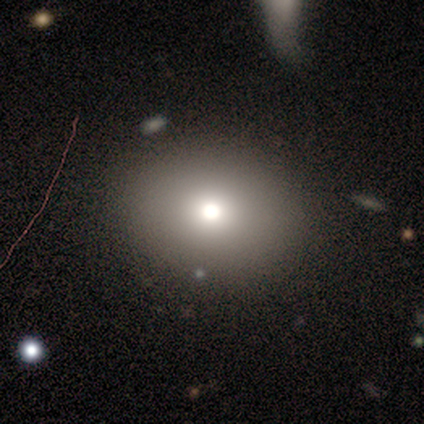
Smooth or featured?
  - smooth: 60% *
  - featured or disk: 20%
  - star or artifact: 20%
How rounded?
  - round: 67% *
  - in between: 33%
  - cigar-shaped: 0%
Merging?
  - none: 75% *
  - minor disturbance: 25%
  - major disturbance: 0%
  - merger: 0%